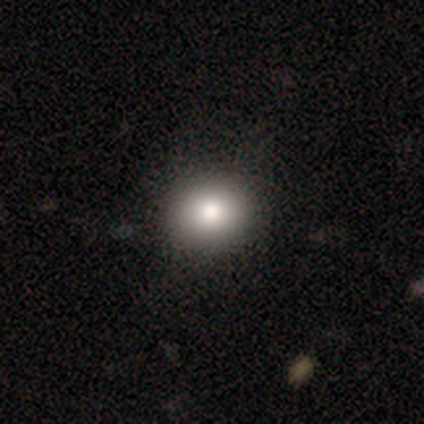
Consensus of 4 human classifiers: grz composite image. It shows a smooth galaxy with no disk features (100%) that is round (100%). Merging: none (50%, tied with minor disturbance).